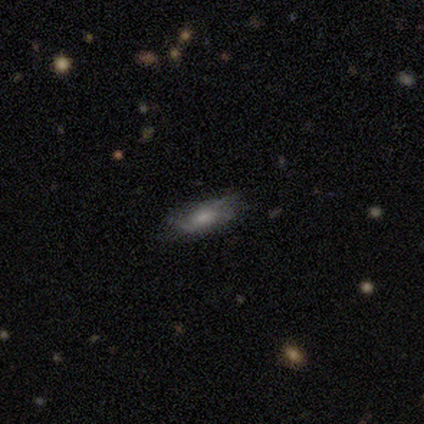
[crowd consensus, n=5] This appears to be a smooth galaxy with no disk features (60%) that is cigar-shaped (67%). Merging: none (60%).